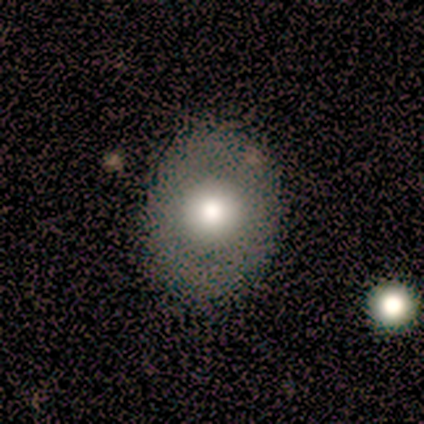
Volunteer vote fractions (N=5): Smooth or featured? 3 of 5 (60%) said smooth. How rounded? 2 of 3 (67%) said round. Merging? 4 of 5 (80%) said none.